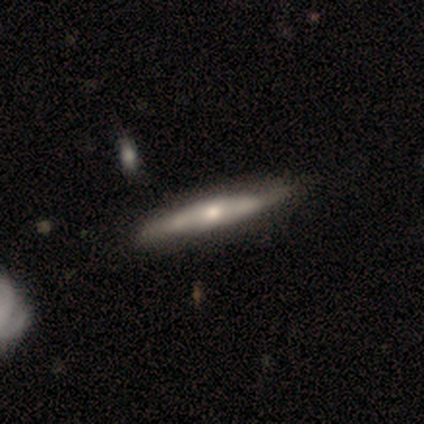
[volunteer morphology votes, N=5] Smooth or featured?
  - featured or disk: 80% *
  - smooth: 20%
  - star or artifact: 0%
Edge-on disk?
  - yes: 100% *
  - no: 0%
Edge-on bulge?
  - rounded: 100% *
  - boxy: 0%
  - none: 0%
Merging?
  - none: 100% *
  - minor disturbance: 0%
  - major disturbance: 0%
  - merger: 0%